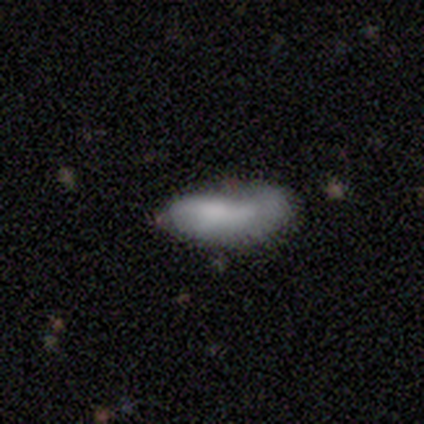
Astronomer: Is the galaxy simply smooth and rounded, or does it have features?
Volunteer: smooth — 60%.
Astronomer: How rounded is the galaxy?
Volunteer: in between — 100%.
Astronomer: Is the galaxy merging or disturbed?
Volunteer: minor disturbance — 50%.